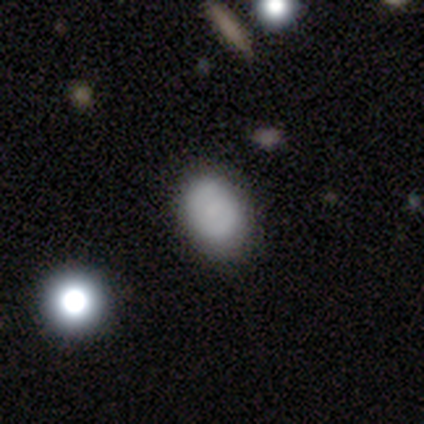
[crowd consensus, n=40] Morphology: type=smooth (60%); roundness=in between (67%); merging=none (59%).